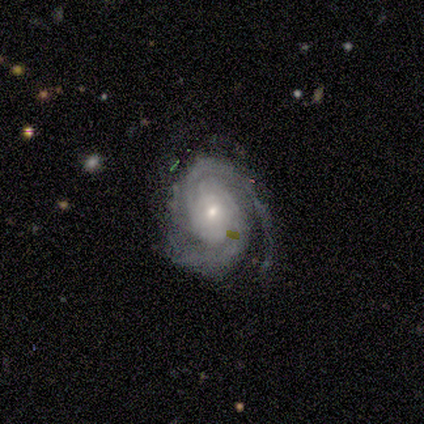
Smooth or featured? featured or disk (93%)
Edge-on disk? no (98%)
Bar? no (79%)
Spiral arms? yes (97%)
Spiral winding? tight (60%)
Spiral arm count? 2 (71%)
Bulge size? small (65%)
Merging? none (61%)